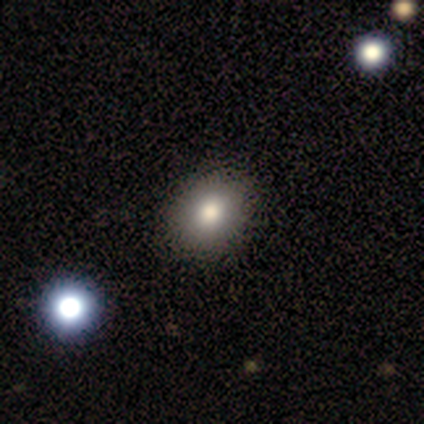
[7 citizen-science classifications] Smooth or featured? smooth (100%)
How rounded? in between (86%)
Merging? none (86%)